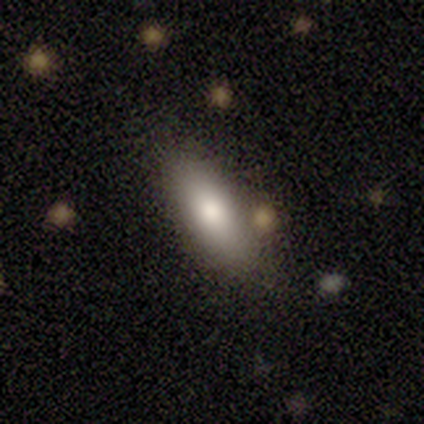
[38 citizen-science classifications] Overall: smooth (87%). How rounded: in between (79%). Merging: none (81%).